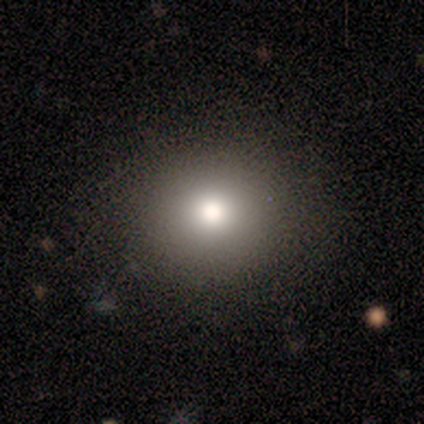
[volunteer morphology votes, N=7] Smooth or featured: smooth — 86% (featured or disk — 14%)
How rounded: round — 100%
Merging: none — 100%